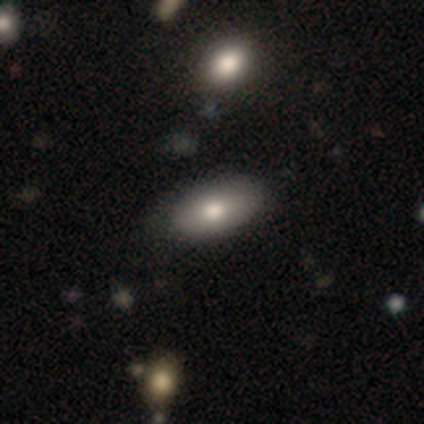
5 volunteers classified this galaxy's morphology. Smooth or featured? smooth (60%)
How rounded? in between (100%)
Merging? none (60%)